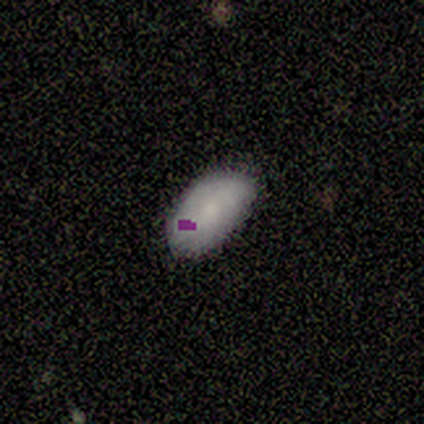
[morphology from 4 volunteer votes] Smooth or featured? smooth (50%, tied with featured or disk)
How rounded? in between (100%)
Merging? none (100%)